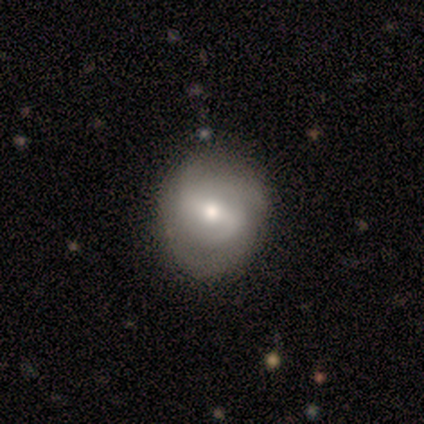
This is likely a featured or disk galaxy (60%). It is clearly not viewed edge-on (100%). Bar: possibly weak (59%). Spiral arm pattern: likely yes (78%). Spiral arm count: possibly 2 (57%). Spiral winding: possibly medium (52%). Central bulge: likely moderate (74%). Merging: likely none (71%).